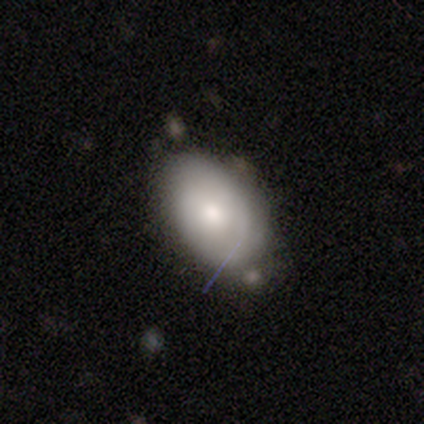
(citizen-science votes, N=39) A smooth galaxy with no disk features (62%) that is in between round and cigar-shaped (100%).

Vote fractions:
- Smooth or featured? smooth: 62% / featured or disk: 38% / star or artifact: 0%
- How rounded? in between: 100% / round: 0% / cigar-shaped: 0%
- Merging? none: 41% / minor disturbance: 38% / major disturbance: 8% / merger: 8%